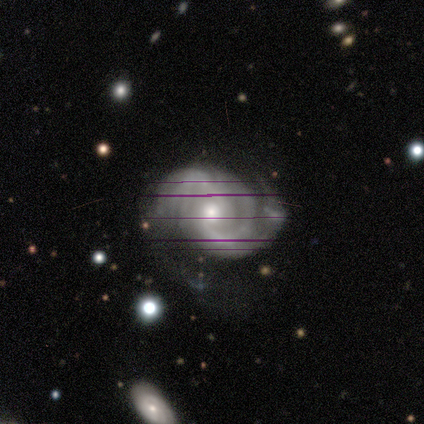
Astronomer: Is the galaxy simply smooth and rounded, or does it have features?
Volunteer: featured or disk — 80%.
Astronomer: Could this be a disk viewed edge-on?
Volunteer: no — 100%.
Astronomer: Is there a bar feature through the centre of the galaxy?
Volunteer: weak — 50%.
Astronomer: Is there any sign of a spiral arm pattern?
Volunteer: yes — 100%.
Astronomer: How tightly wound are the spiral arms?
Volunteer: loose — 50%.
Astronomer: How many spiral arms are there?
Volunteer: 2 — 50%.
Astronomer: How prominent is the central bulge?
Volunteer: moderate — 75%.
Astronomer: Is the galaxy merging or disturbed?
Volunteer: major disturbance — 75%.